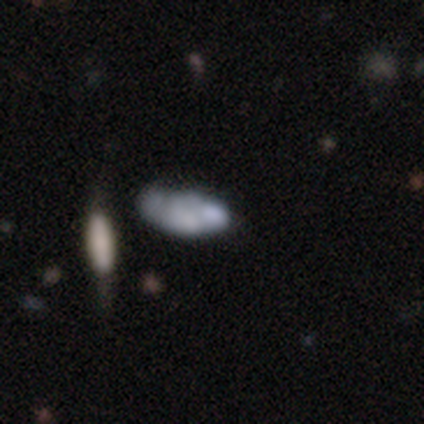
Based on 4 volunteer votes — A smooth galaxy with no disk features (75%) that is in between round and cigar-shaped (100%).

Vote fractions:
- Smooth or featured? smooth: 75% / featured or disk: 25% / star or artifact: 0%
- How rounded? in between: 100% / round: 0% / cigar-shaped: 0%
- Merging? none: 50% / minor disturbance: 25% / merger: 25% / major disturbance: 0%